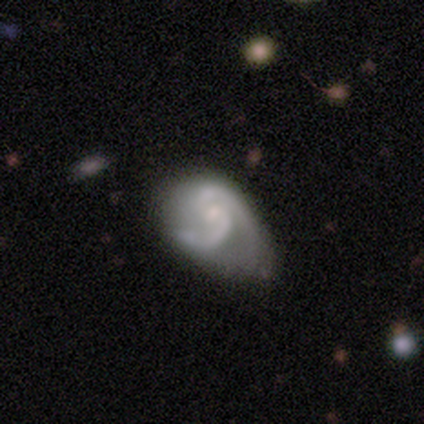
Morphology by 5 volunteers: smooth-or-featured: featured or disk: 100% | smooth: 0% | star or artifact: 0%
  disk-edge-on: no: 100% | yes: 0%
    bar: weak: 40% (tied) | no: 40% (tied) | strong: 20%
    has-spiral-arms: yes: 100% | no: 0%
      spiral-winding: medium: 60% | loose: 40% | tight: 0%
      spiral-arm-count: 2: 100% | 1: 0% | 3: 0% | 4: 0% | more than 4: 0% | can't tell: 0%
    bulge-size: moderate: 100% | dominant: 0% | large: 0% | small: 0% | none: 0%
  merging: none: 40% (tied) | major disturbance: 40% (tied) | minor disturbance: 20% | merger: 0%